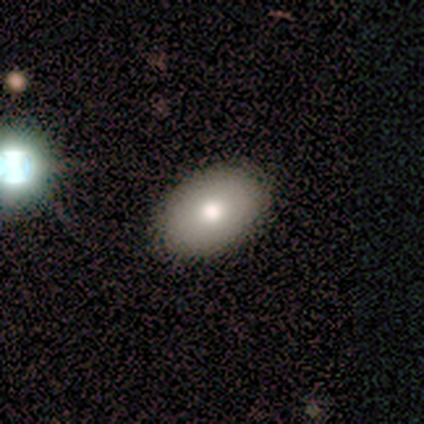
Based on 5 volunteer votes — Overall: featured or disk (60%; smooth 40%). Edge-on disk: no (100%). Bar: no (100%). Spiral arms: no (100%). Bulge size: moderate (100%). Merging: none (80%).